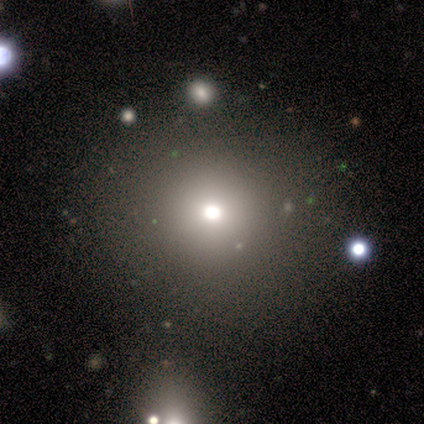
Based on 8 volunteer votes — Smooth or featured? smooth (75%)
How rounded? round (100%)
Merging? none (100%)